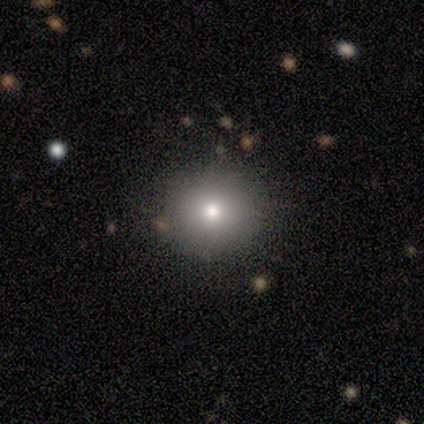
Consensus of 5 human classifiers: Q: Smooth or featured?
A: smooth (80%); runner-up: star or artifact (20%)
Q: How rounded?
A: round (100%)
Q: Merging?
A: none (100%)